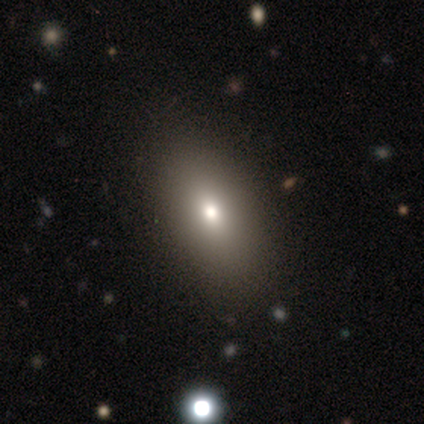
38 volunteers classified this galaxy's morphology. type=smooth (68%); roundness=in between (88%); merging=none (85%).